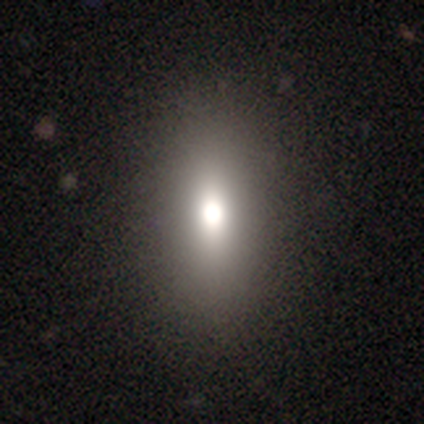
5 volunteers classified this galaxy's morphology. This is clearly a smooth galaxy (100%). How rounded: clearly in between (80%). Merging: clearly none (100%).